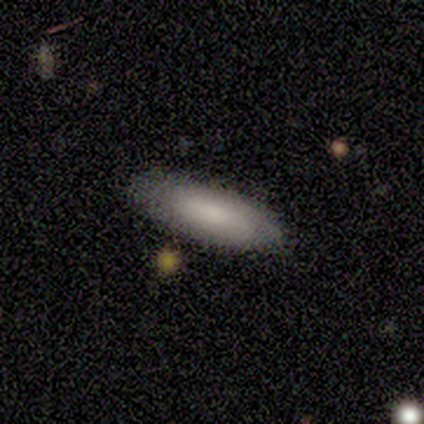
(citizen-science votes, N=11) Smooth or featured: smooth — 82% (featured or disk — 18%)
How rounded: in between — 67% (cigar-shaped — 33%)
Merging: none — 100%